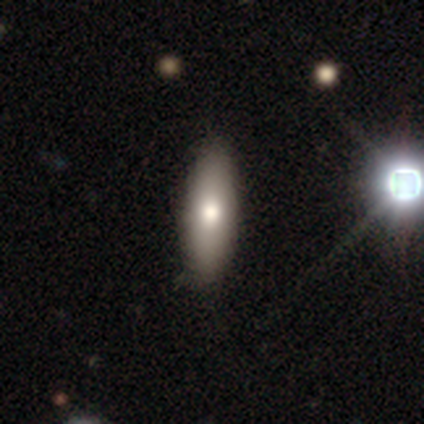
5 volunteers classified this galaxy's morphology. Q: Smooth or featured?
A: featured or disk (60%); runner-up: star or artifact (40%)
Q: Edge-on disk?
A: no (100%)
Q: Bar?
A: no (100%)
Q: Spiral arms?
A: no (100%)
Q: Bulge size?
A: moderate (67%); runner-up: large (33%)
Q: Merging?
A: minor disturbance (67%); runner-up: none (33%)